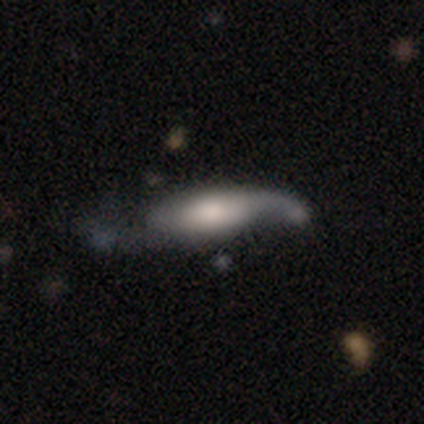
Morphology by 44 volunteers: type=featured or disk (55%); edge-on=no (79%); bar=no (63%); spiral arms=yes (95%); winding=loose (78%); arm count=2 (67%); bulge=large (32%); merging=none (44%).